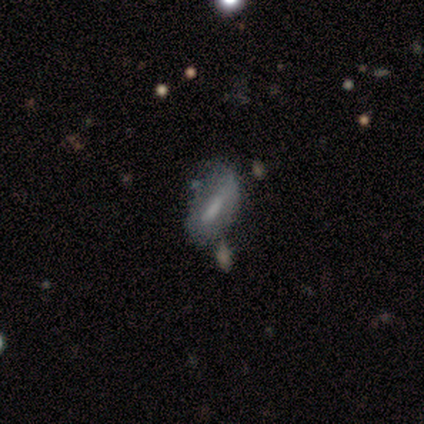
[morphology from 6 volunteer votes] Volunteers were most divided on "merging" (2-way tie): none: 33%, minor disturbance: 33%, major disturbance: 17%, merger: 17%. More confident: how rounded — in between (75%); smooth or featured — smooth (67%).